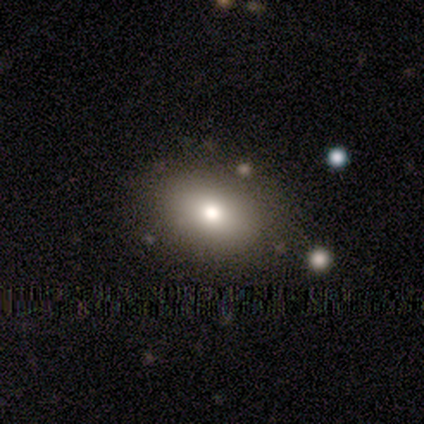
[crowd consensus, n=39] Smooth or featured?
  - smooth: 82% *
  - featured or disk: 13%
  - star or artifact: 5%
How rounded?
  - in between: 84% *
  - round: 16%
  - cigar-shaped: 0%
Merging?
  - none: 57% *
  - merger: 5%
  - minor disturbance: 0%
  - major disturbance: 0%